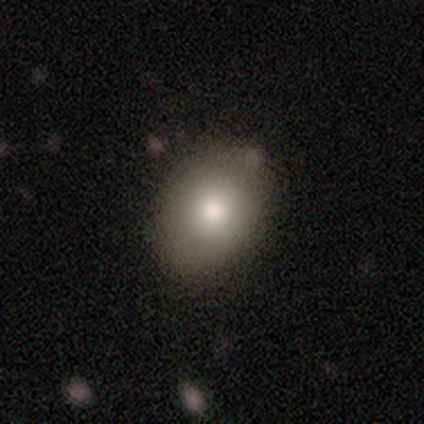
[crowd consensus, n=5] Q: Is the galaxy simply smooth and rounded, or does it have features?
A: smooth — 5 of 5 (100%).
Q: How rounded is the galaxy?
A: in between — 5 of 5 (100%).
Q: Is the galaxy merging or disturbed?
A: none — 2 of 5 (40%, tied with merger).